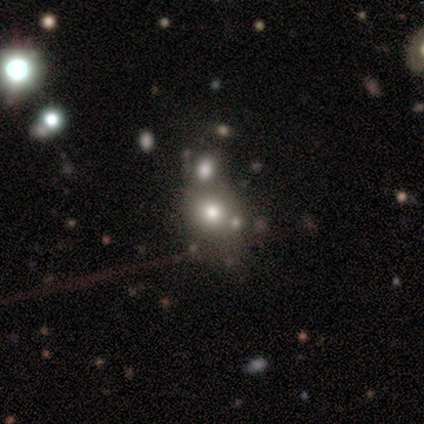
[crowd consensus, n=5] Smooth or featured? 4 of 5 (80%) said smooth. How rounded? 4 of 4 (100%) said round. Merging? 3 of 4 (75%) said none.